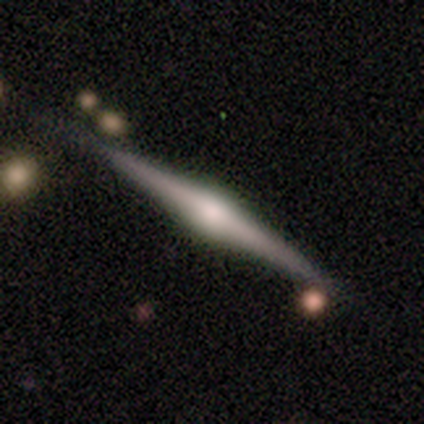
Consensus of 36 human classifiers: featured or disk 81%, smooth 11%, star or artifact 8%. Down the decision tree: edge-on disk — yes (100%); edge-on bulge — rounded (90%); merging — none (85%).